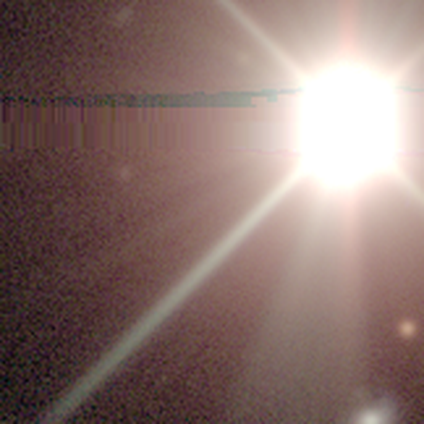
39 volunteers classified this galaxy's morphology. Smooth or featured: star or artifact — 97% (smooth — 3%)